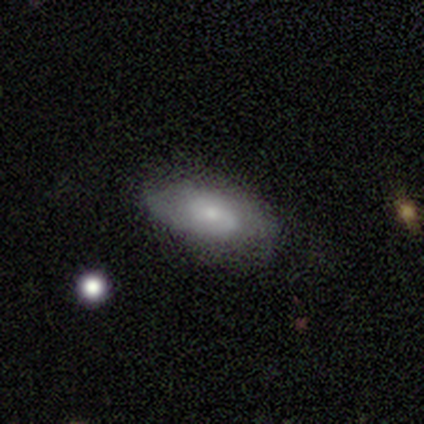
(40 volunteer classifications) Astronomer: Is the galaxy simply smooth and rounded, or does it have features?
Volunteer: smooth — 50% (runner-up: featured or disk, 40%).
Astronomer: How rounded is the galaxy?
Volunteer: in between — 90%.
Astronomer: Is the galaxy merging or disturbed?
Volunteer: none — 72%.